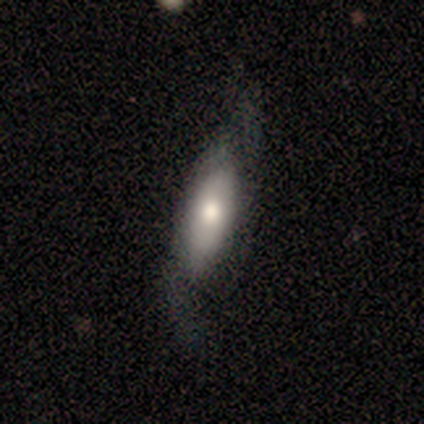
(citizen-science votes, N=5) This appears to be a smooth galaxy with no disk features (40%, tied with featured or disk) that is in between round and cigar-shaped (100%). Merging: major disturbance (50%).